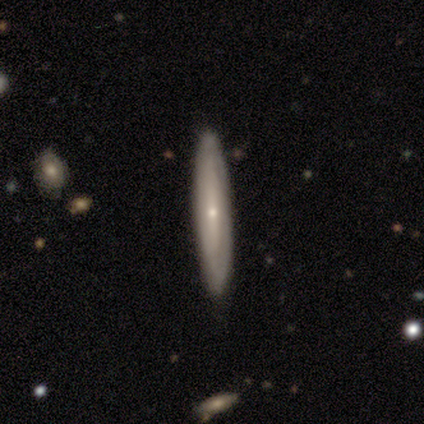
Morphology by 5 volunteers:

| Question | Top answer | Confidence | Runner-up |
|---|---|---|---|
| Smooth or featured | featured or disk | 60% | smooth (40%) |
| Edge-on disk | no | 67% | yes (33%) |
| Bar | weak | 50% | tied: no (50%) |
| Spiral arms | yes | 100% | — |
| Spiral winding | tight | 50% | tied: loose (50%) |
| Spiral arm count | can't tell | 100% | — |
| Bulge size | small | 100% | — |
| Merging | none | 80% | merger (20%) |